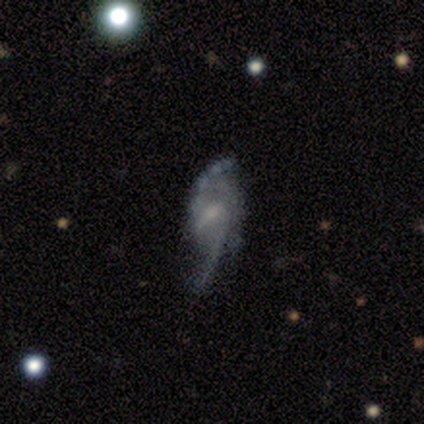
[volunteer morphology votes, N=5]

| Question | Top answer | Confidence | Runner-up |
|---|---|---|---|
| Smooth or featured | featured or disk | 80% | star or artifact (20%) |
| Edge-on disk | no | 100% | — |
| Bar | weak | 75% | strong (25%) |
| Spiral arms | yes | 75% | no (25%) |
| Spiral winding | loose | 67% | medium (33%) |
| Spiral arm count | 2 | 67% | 3 (33%) |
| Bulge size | small | 75% | moderate (25%) |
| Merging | none | 50% | minor disturbance (25%) |